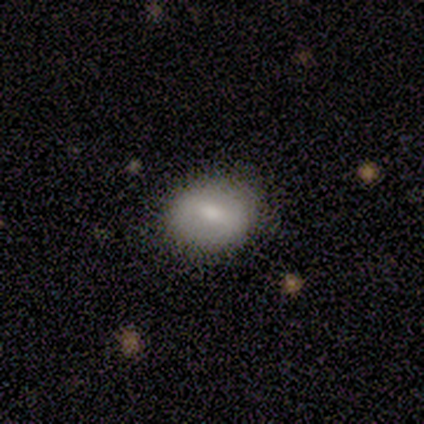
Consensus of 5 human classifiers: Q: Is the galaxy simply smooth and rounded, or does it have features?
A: smooth — 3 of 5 (60%).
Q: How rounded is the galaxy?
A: round — 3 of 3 (100%).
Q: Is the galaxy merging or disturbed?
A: none — 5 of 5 (100%).